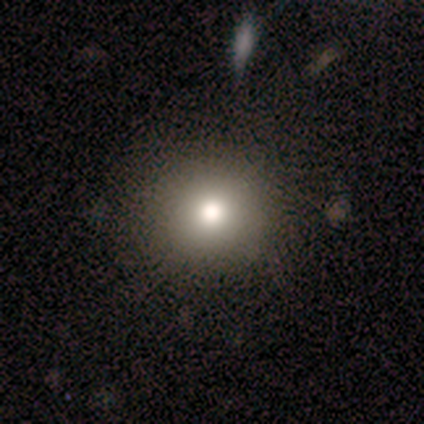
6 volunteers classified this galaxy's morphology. Q: Smooth or featured?
A: smooth (100%)
Q: How rounded?
A: round (83%); runner-up: in between (17%)
Q: Merging?
A: none (83%); runner-up: major disturbance (17%)